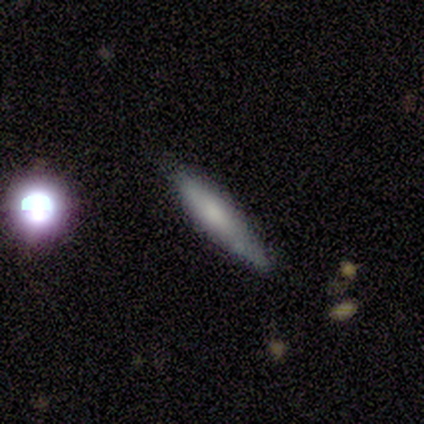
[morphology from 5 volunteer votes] smooth_or_featured: smooth (p=1.00)
how_rounded: cigar-shaped (p=1.00)
merging: none (p=0.60) [alt: minor disturbance p=0.40]